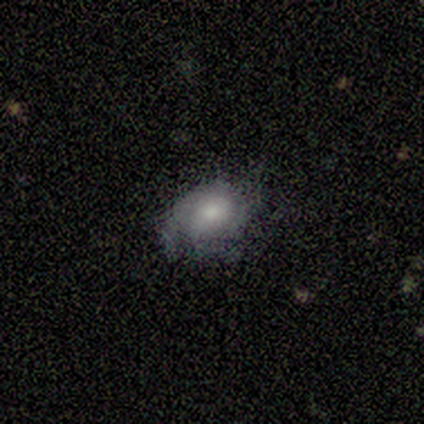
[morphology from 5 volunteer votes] Smooth or featured?
  - smooth: 60% *
  - featured or disk: 20%
  - star or artifact: 20%
How rounded?
  - in between: 67% *
  - round: 33%
  - cigar-shaped: 0%
Merging?
  - none: 50% *
  - minor disturbance: 25%
  - major disturbance: 25%
  - merger: 0%